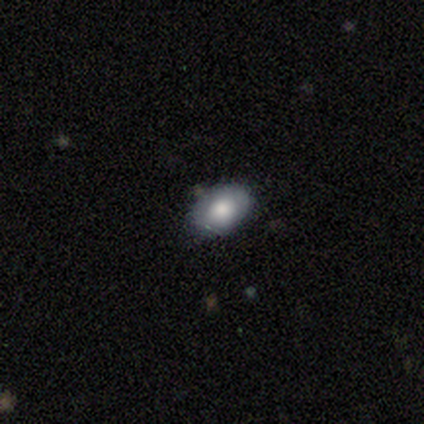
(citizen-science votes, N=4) Smooth or featured? featured or disk (75%)
Edge-on disk? no (100%)
Bar? no (100%)
Spiral arms? no (100%)
Bulge size? large (67%)
Merging? none (100%)